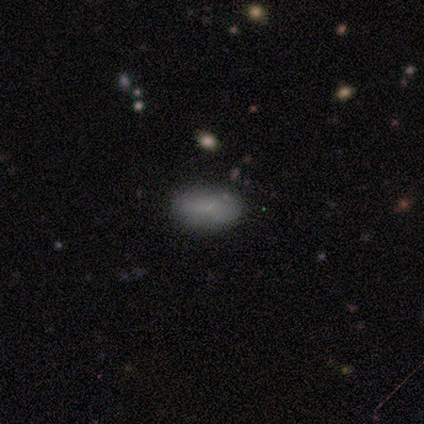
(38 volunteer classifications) Morphology: type=smooth (71%); roundness=in between (89%); merging=none (94%).